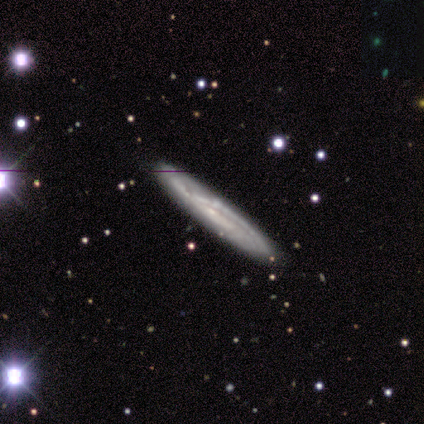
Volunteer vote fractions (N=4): Volunteers were most divided on "merging": none: 75%, minor disturbance: 25%, major disturbance: 0%, merger: 0%. More confident: smooth or featured — featured or disk (100%); edge-on disk — yes (100%); edge-on bulge — none (100%).